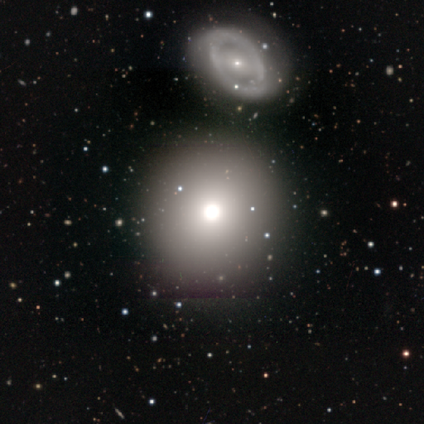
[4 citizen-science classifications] Smooth or featured: smooth — 75% (star or artifact — 25%)
How rounded: round — 100%
Merging: none — 100%